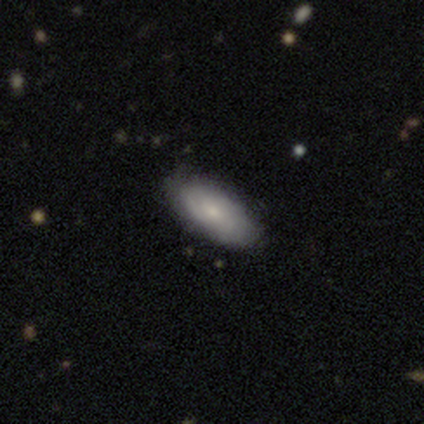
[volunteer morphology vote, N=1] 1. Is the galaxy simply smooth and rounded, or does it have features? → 100% featured or disk, 0% smooth, 0% star or artifact.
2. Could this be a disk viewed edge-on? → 100% no, 0% yes.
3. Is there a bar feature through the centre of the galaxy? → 100% no, 0% strong, 0% weak.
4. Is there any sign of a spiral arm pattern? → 100% yes, 0% no.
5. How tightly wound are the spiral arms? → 100% medium, 0% tight, 0% loose.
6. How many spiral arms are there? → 100% 2, 0% 1, 0% 3, 0% 4, 0% more than 4, 0% can't tell.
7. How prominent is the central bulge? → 100% small, 0% dominant, 0% large, 0% moderate, 0% none.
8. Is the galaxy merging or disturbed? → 100% none, 0% minor disturbance, 0% major disturbance, 0% merger.